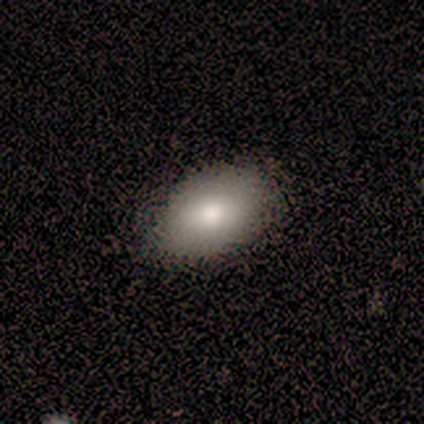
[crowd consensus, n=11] smooth 82%, featured or disk 18%, star or artifact 0%. Down the decision tree: how rounded — in between (100%); merging — none (82%).